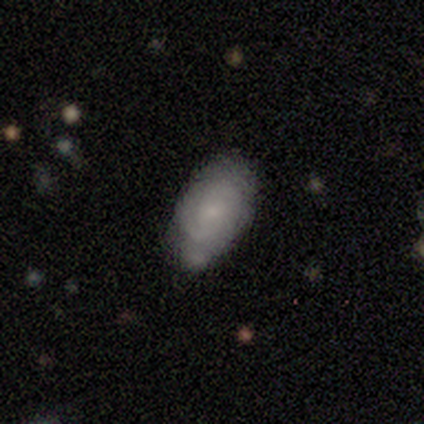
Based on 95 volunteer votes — Q: Smooth or featured?
A: smooth (51%); runner-up: featured or disk (40%)
Q: How rounded?
A: in between (96%); runner-up: round (4%)
Q: Merging?
A: none (65%); runner-up: minor disturbance (23%)